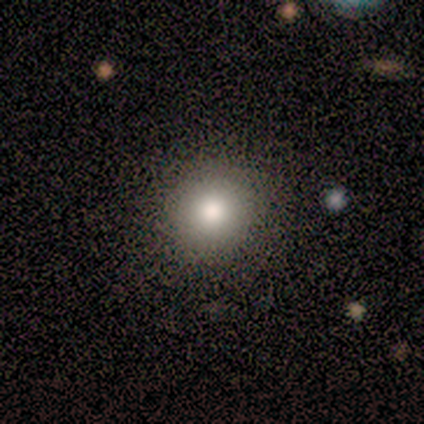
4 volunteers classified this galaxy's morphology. smooth_or_featured: smooth (p=1.00)
how_rounded: round (p=0.75) [alt: in between p=0.25]
merging: none (p=0.75) [alt: major disturbance p=0.25]